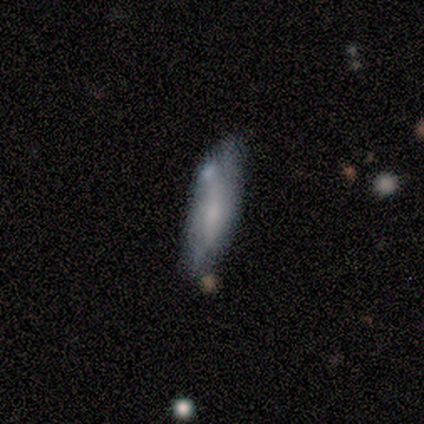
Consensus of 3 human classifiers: This is clearly a smooth galaxy (100%). How rounded: likely in between (67%). Merging: likely none (67%).